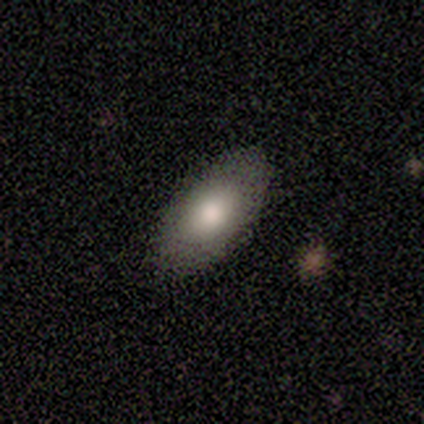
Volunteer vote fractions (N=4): Overall: smooth (100%). How rounded: in between (100%). Merging: none (75%).